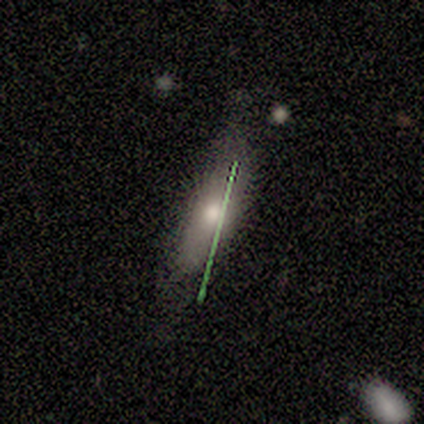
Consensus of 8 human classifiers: A smooth galaxy with no disk features (62%) that is cigar-shaped (60%).

Vote fractions:
- Smooth or featured? smooth: 62% / featured or disk: 25% / star or artifact: 12%
- How rounded? cigar-shaped: 60% / in between: 40% / round: 0%
- Merging? none: 71% / minor disturbance: 29% / major disturbance: 0% / merger: 0%